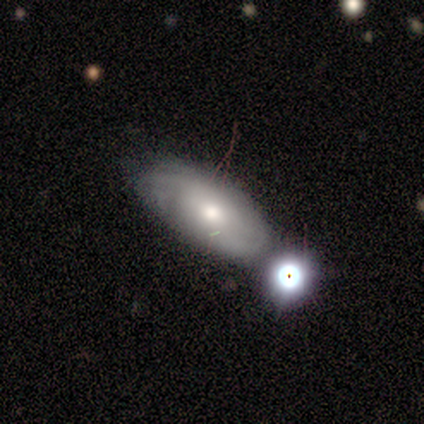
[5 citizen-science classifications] Smooth or featured?
  - smooth: 60% *
  - featured or disk: 40%
  - star or artifact: 0%
How rounded?
  - in between: 100% *
  - round: 0%
  - cigar-shaped: 0%
Merging?
  - merger: 60% *
  - none: 20%
  - minor disturbance: 20%
  - major disturbance: 0%